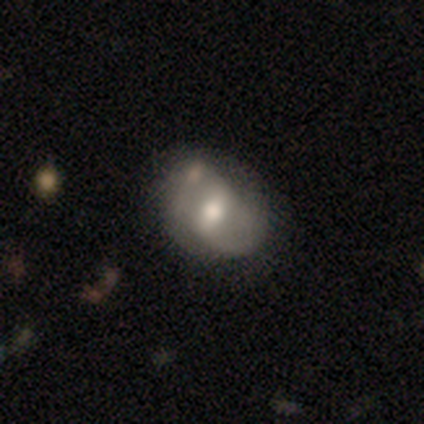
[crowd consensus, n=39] featured or disk 64%, smooth 28%, star or artifact 8%. Down the decision tree: edge-on disk — no (100%); bar — weak (56%); spiral arms — yes (76%); spiral arm count — 2 (84%); spiral winding — medium (47%); bulge size — moderate (68%); merging — none (42%).